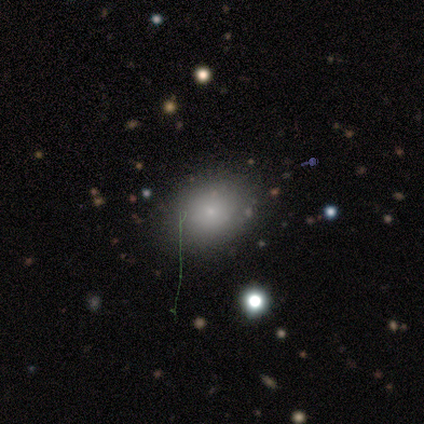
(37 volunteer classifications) This is likely a smooth galaxy (68%). How rounded: likely in between (72%). Merging: likely none (74%).